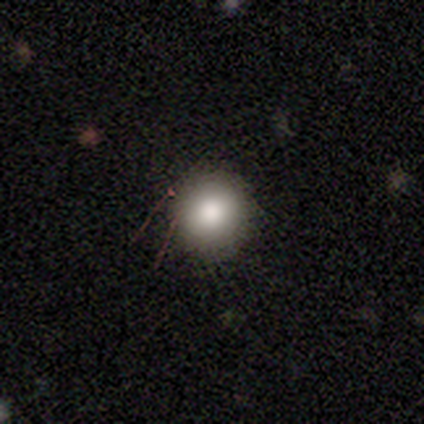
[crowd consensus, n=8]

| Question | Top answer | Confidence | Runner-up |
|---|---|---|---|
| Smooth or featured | smooth | 100% | — |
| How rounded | round | 100% | — |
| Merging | none | 50% | tied: minor disturbance (50%) |